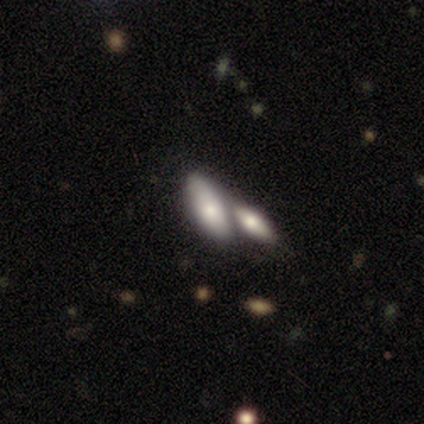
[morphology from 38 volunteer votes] smooth_or_featured: smooth (p=0.74) [alt: featured or disk p=0.21]
how_rounded: in between (p=0.75) [alt: cigar-shaped p=0.21]
merging: merger (p=0.61) [alt: none p=0.25]